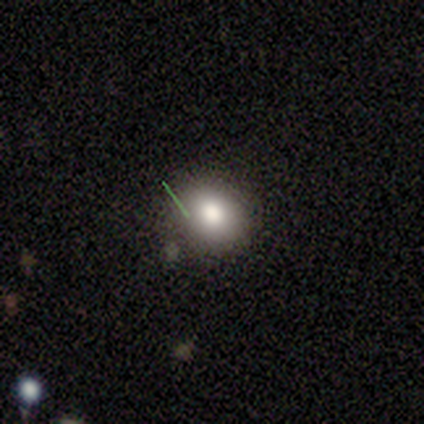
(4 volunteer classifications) Q: Smooth or featured?
A: smooth (50%); tied with: star or artifact (50%)
Q: How rounded?
A: round (50%); tied with: in between (50%)
Q: Merging?
A: none (50%); tied with: minor disturbance (50%)